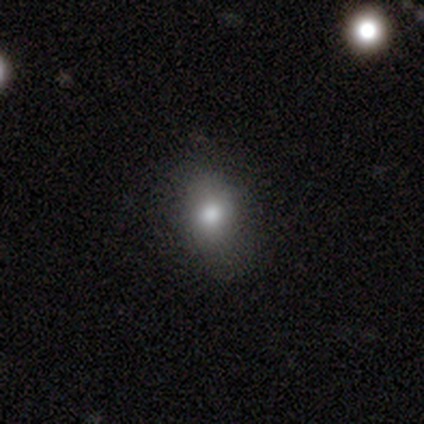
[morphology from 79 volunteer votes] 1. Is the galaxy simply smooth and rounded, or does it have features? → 78% smooth, 13% featured or disk, 9% star or artifact.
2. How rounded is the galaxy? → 65% in between, 31% round, 5% cigar-shaped.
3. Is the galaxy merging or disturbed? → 56% none, 7% minor disturbance, 3% major disturbance, 1% merger.